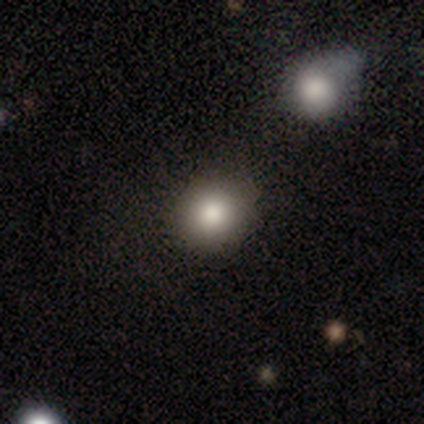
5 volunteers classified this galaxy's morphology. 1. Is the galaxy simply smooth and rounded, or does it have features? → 80% smooth, 20% star or artifact, 0% featured or disk.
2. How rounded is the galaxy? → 100% round, 0% in between, 0% cigar-shaped.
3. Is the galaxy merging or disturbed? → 75% none, 25% merger, 0% minor disturbance, 0% major disturbance.